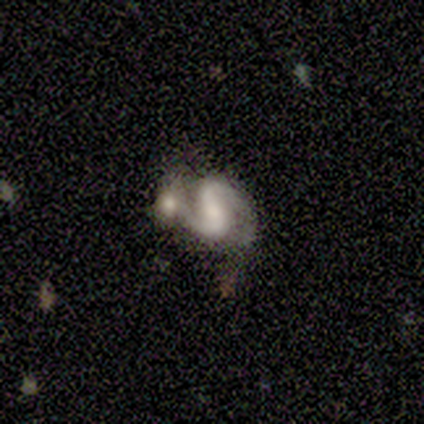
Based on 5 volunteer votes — Smooth or featured: featured or disk — 80% (smooth — 20%)
Edge-on disk: no — 100%
Bar: weak — 50% (strong — 25%)
Spiral arms: yes — 100%
Spiral winding: medium — 50% (tight — 25%)
Spiral arm count: 2 — 100%
Bulge size: dominant — 25% (tied with moderate — 25%; small — 25%; none — 25%)
Merging: merger — 60% (none — 20%)